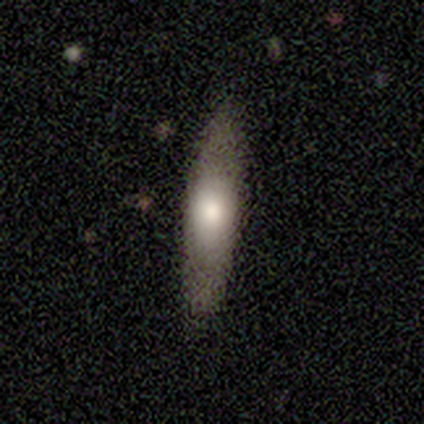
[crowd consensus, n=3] smooth-or-featured: featured or disk: 67% | smooth: 33% | star or artifact: 0%
  disk-edge-on: yes: 50% (tied) | no: 50% (tied)
    edge-on-bulge: none: 100% | boxy: 0% | rounded: 0%
  merging: none: 67% | minor disturbance: 33% | major disturbance: 0% | merger: 0%